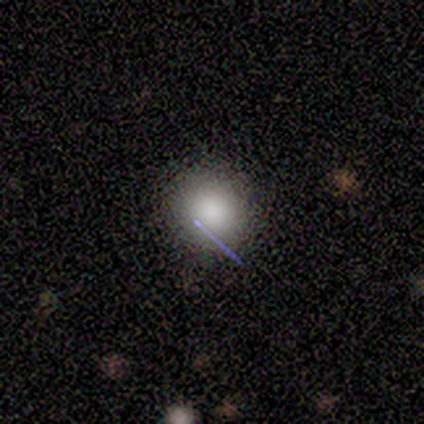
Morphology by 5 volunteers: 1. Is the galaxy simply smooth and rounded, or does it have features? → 80% smooth, 20% star or artifact, 0% featured or disk.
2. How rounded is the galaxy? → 100% round, 0% in between, 0% cigar-shaped.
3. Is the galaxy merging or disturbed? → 100% none, 0% minor disturbance, 0% major disturbance, 0% merger.